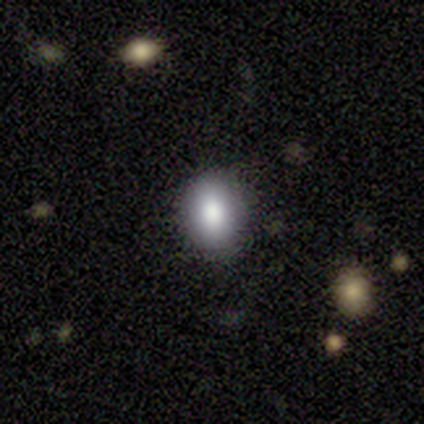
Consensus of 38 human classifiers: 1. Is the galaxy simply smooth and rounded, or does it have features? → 89% smooth, 8% star or artifact, 3% featured or disk.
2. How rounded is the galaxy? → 50% round, 47% in between, 3% cigar-shaped.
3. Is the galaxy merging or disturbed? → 94% none, 6% major disturbance, 0% minor disturbance, 0% merger.